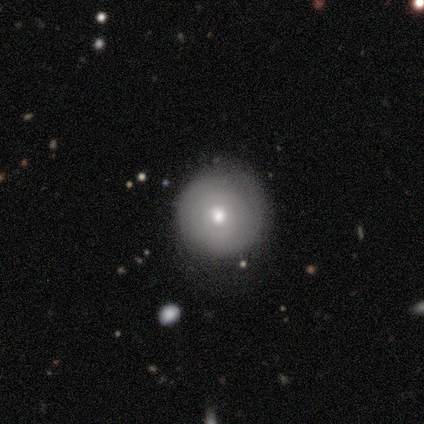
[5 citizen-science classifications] Smooth or featured: smooth — 60% (featured or disk — 40%)
How rounded: round — 100%
Merging: none — 100%